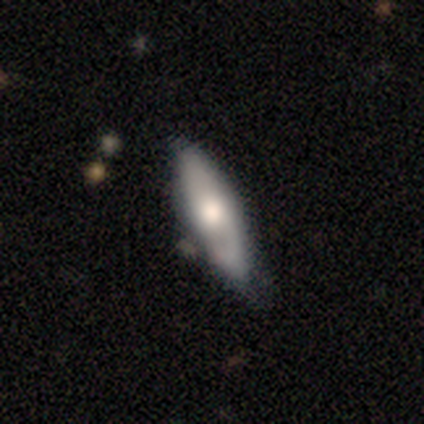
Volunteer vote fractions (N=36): Overall: featured or disk (64%; smooth 33%). Edge-on disk: no (52%; yes 48%). Bar: no (92%). Spiral arms: yes (50%, tied with no). Spiral arm count: 1 (50%; 2 33%). Spiral winding: tight (33%, tied with medium and loose). Bulge size: moderate (67%). Merging: none (69%).